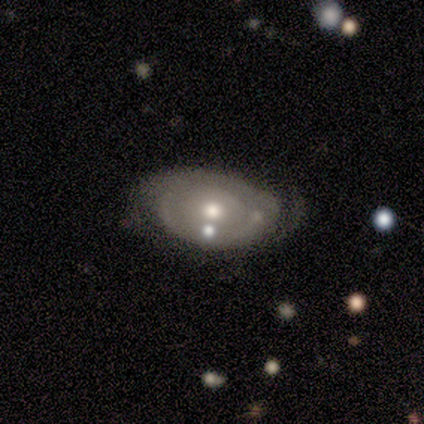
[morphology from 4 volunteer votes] Q: Smooth or featured?
A: featured or disk (100%)
Q: Edge-on disk?
A: no (100%)
Q: Bar?
A: no (100%)
Q: Spiral arms?
A: yes (50%); tied with: no (50%)
Q: Spiral winding?
A: tight (100%)
Q: Spiral arm count?
A: 2 (50%); tied with: can't tell (50%)
Q: Bulge size?
A: moderate (75%); runner-up: small (25%)
Q: Merging?
A: none (50%); tied with: minor disturbance (50%)